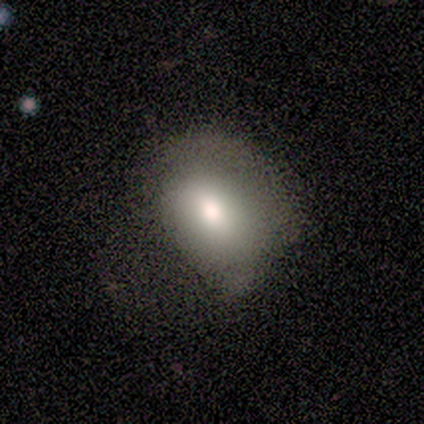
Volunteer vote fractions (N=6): smooth 83%, featured or disk 17%, star or artifact 0%. Down the decision tree: how rounded — in between (80%); merging — none (50%).